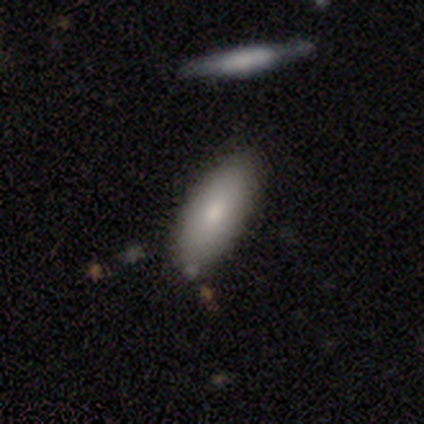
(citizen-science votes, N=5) smooth 80%, featured or disk 20%, star or artifact 0%. Down the decision tree: how rounded — in between (75%); merging — none (80%).